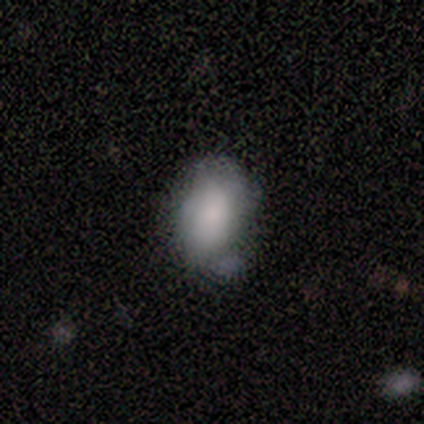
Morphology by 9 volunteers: A smooth galaxy with no disk features (78%) that is in between round and cigar-shaped (86%). Merging: none (75%).